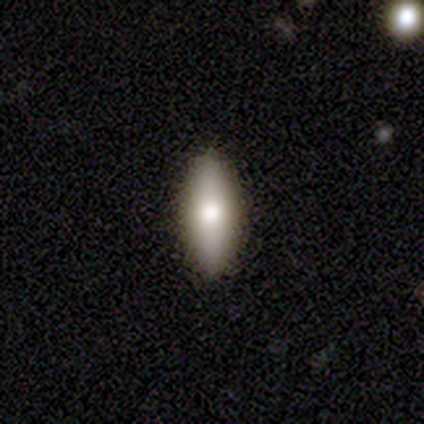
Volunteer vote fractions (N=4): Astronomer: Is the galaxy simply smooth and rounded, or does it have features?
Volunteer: smooth — 50%, tied with featured or disk at 50%.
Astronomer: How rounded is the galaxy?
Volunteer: in between — 50%, tied with cigar-shaped at 50%.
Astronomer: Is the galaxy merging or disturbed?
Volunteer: none — 100%.